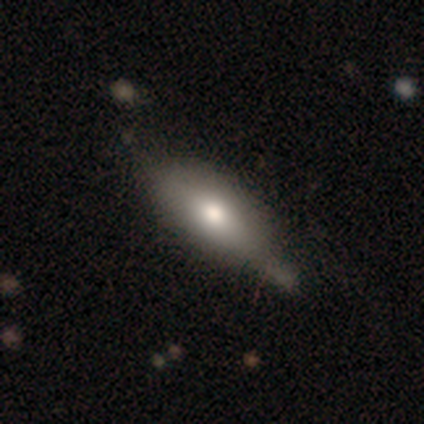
smooth 100%, featured or disk 0%, star or artifact 0%. Down the decision tree: how rounded — cigar-shaped (60%); merging — none (60%).